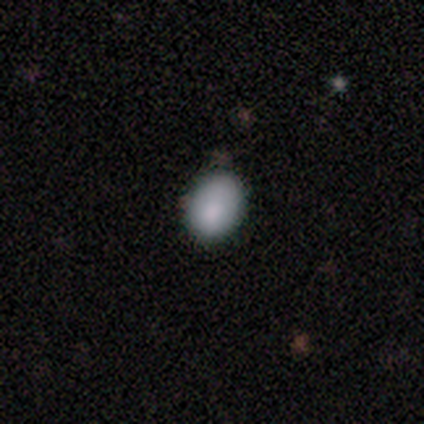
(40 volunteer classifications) Morphology: type=smooth (88%); roundness=in between (94%); merging=none (65%).